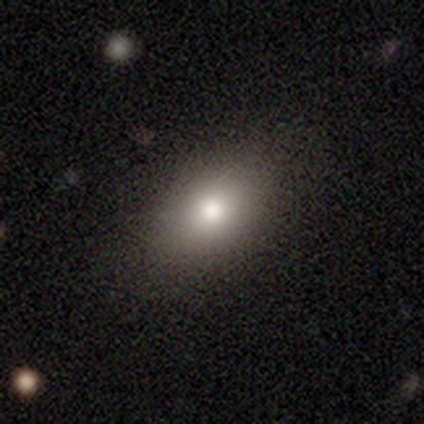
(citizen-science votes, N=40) Morphology: type=smooth (68%); roundness=in between (100%); merging=none (76%).